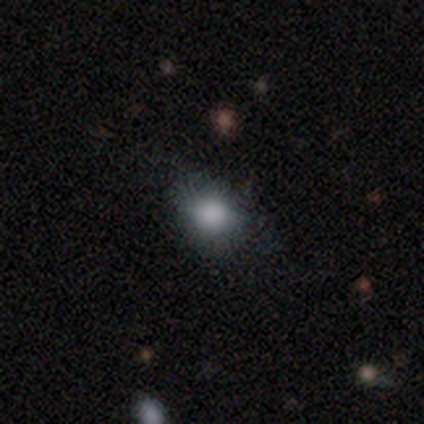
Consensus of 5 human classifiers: This appears to be a smooth galaxy with no disk features (80%) that is round (50%, tied with in between). Merging: minor disturbance (60%).